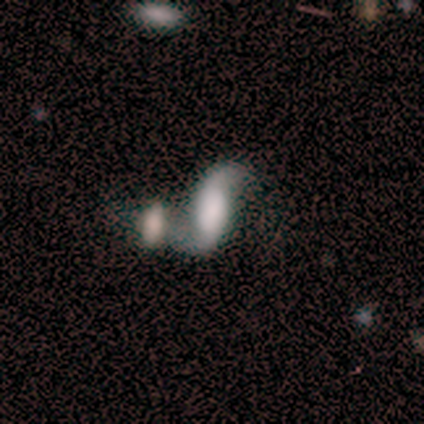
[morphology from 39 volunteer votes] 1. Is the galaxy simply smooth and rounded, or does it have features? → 77% featured or disk, 18% smooth, 5% star or artifact.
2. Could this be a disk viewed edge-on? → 90% no, 10% yes.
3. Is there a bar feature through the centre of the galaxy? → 41% no, 30% strong, 30% weak.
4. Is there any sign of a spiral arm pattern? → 100% yes, 0% no.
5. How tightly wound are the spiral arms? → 89% loose, 11% medium, 0% tight.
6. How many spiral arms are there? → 93% 2, 7% can't tell, 0% 1, 0% 3, 0% 4, 0% more than 4.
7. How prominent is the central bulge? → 48% none, 26% large, 11% small, 7% dominant, 7% moderate.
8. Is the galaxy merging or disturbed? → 43% merger, 38% none, 14% minor disturbance, 5% major disturbance.